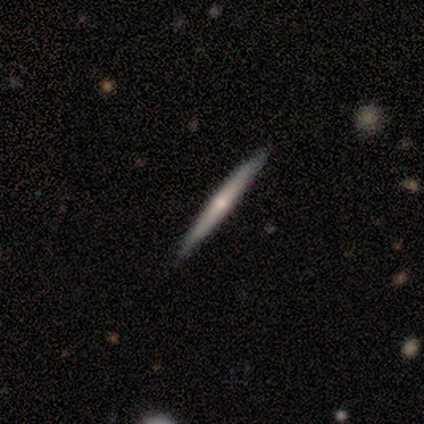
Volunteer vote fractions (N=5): Smooth or featured: featured or disk — 80% (smooth — 20%)
Edge-on disk: yes — 100%
Edge-on bulge: none — 50% (tied with rounded — 50%)
Merging: none — 100%